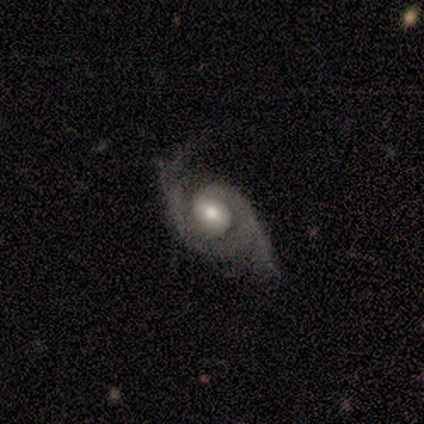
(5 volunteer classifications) Smooth or featured? 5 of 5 (100%) said featured or disk. Edge-on disk? 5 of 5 (100%) said no. Bar? 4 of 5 (80%) said no. Spiral arms? 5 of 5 (100%) said yes. Spiral winding? 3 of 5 (60%) said tight. Spiral arm count? 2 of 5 (40%, tied with 2) said 1. Bulge size? 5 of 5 (100%) said moderate. Merging? 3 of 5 (60%) said none.